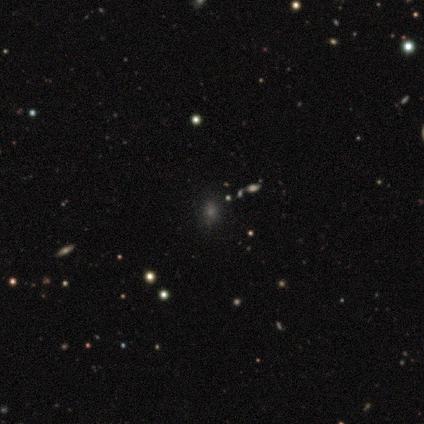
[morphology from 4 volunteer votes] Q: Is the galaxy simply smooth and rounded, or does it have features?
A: star or artifact — 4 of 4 (100%).